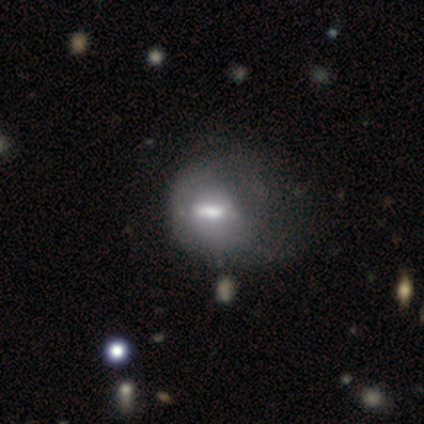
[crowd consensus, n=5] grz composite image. It shows a featured or disk galaxy (100%) with a strong bar (60%), no spiral arms (60%) and a moderate central bulge (80%). Merging: major disturbance (80%).